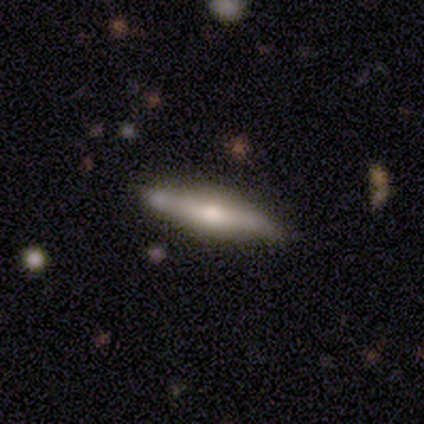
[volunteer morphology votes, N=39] Smooth or featured: featured or disk — 56% (smooth — 36%)
Edge-on disk: yes — 86% (no — 14%)
Edge-on bulge: rounded — 79% (boxy — 16%)
Merging: none — 58% (minor disturbance — 39%)